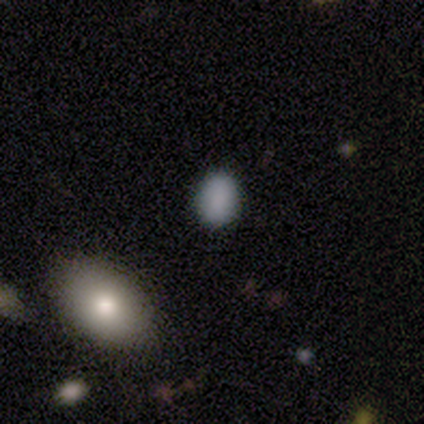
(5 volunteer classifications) Smooth or featured: smooth — 100%
How rounded: in between — 60% (round — 40%)
Merging: none — 80% (minor disturbance — 20%)